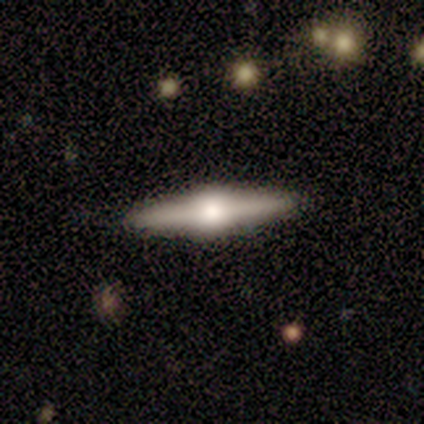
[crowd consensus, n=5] smooth-or-featured: featured or disk: 100% | smooth: 0% | star or artifact: 0%
  disk-edge-on: yes: 100% | no: 0%
    edge-on-bulge: rounded: 100% | boxy: 0% | none: 0%
  merging: none: 100% | minor disturbance: 0% | major disturbance: 0% | merger: 0%